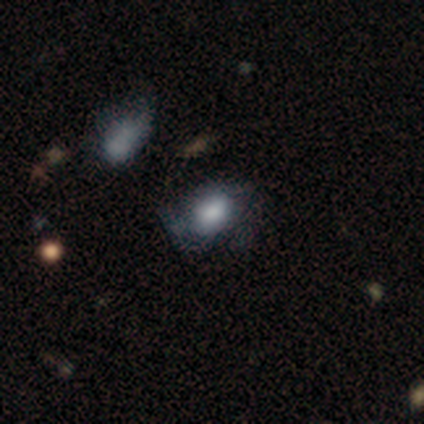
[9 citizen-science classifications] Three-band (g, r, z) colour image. It shows a smooth galaxy with no disk features (89%) that is in between round and cigar-shaped (88%). Merging: none (33%, tied with minor disturbance).